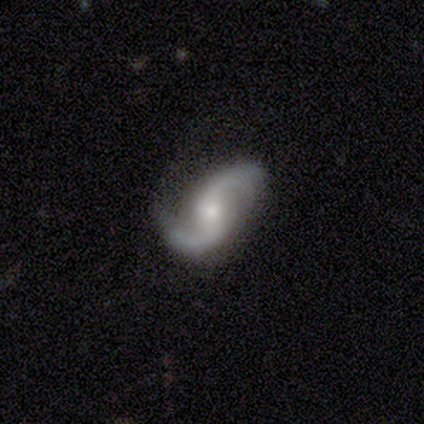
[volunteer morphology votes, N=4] Smooth or featured? 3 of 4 (75%) said featured or disk. Edge-on disk? 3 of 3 (100%) said no. Bar? 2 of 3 (67%) said weak. Spiral arms? 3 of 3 (100%) said yes. Spiral winding? 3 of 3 (100%) said loose. Spiral arm count? 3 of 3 (100%) said 2. Bulge size? 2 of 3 (67%) said small. Merging? 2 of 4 (50%) said none.